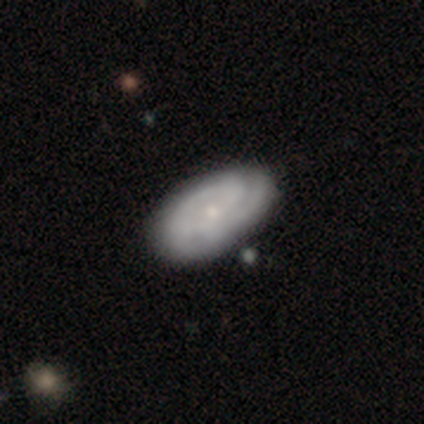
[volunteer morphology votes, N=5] smooth 60%, featured or disk 40%, star or artifact 0%. Down the decision tree: how rounded — in between (100%); merging — none (80%).